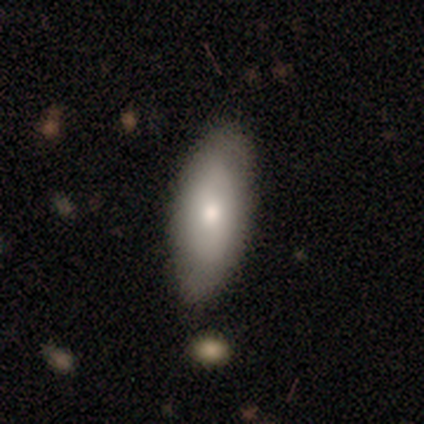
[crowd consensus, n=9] A smooth galaxy with no disk features (56%) that is in between round and cigar-shaped (80%).

Vote fractions:
- Smooth or featured? smooth: 56% / featured or disk: 22% / star or artifact: 22%
- How rounded? in between: 80% / cigar-shaped: 20% / round: 0%
- Merging? none: 86% / minor disturbance: 14% / major disturbance: 0% / merger: 0%